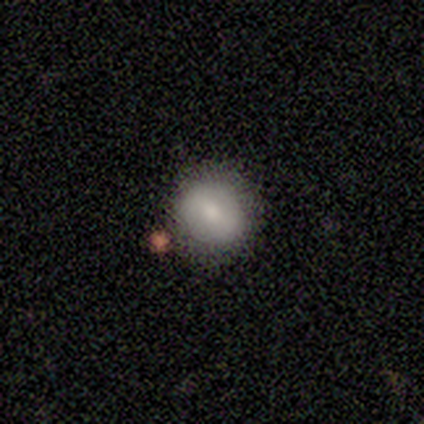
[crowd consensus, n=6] smooth-or-featured: smooth: 67% | featured or disk: 33% | star or artifact: 0%
  how-rounded: round: 100% | in between: 0% | cigar-shaped: 0%
  merging: none: 100% | minor disturbance: 0% | major disturbance: 0% | merger: 0%